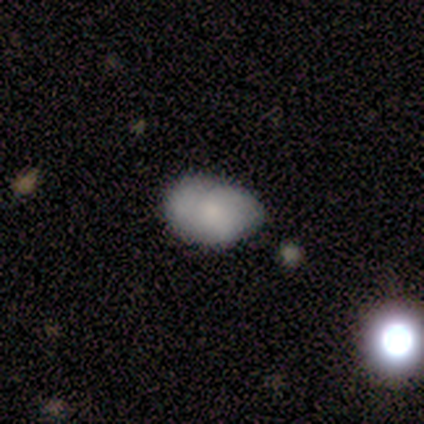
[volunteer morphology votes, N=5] Smooth or featured? 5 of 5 (100%) said smooth. How rounded? 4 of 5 (80%) said in between. Merging? 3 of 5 (60%) said minor disturbance.